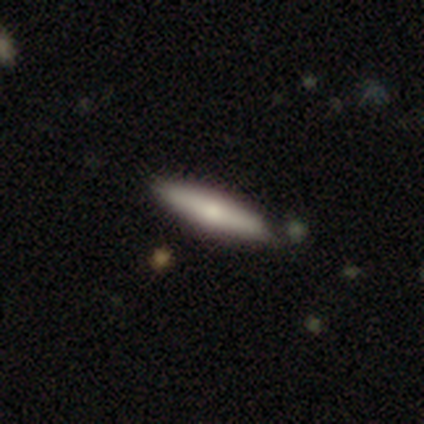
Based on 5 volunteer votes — Smooth or featured: featured or disk — 60% (smooth — 40%)
Edge-on disk: yes — 100%
Edge-on bulge: rounded — 100%
Merging: none — 80% (minor disturbance — 20%)